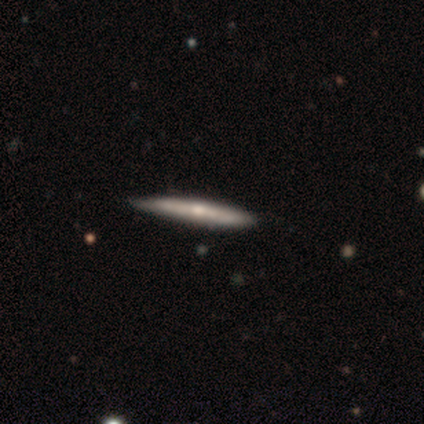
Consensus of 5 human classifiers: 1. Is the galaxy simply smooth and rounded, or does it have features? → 60% smooth, 40% featured or disk, 0% star or artifact.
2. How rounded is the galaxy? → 100% cigar-shaped, 0% round, 0% in between.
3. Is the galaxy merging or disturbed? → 80% none, 20% minor disturbance, 0% major disturbance, 0% merger.